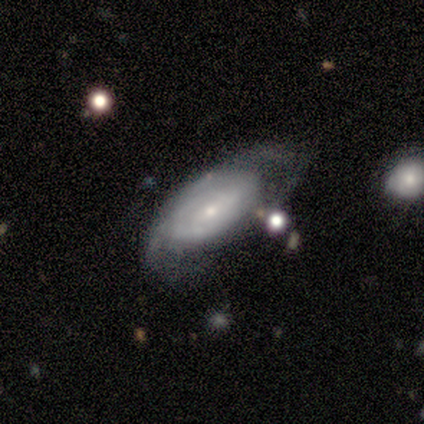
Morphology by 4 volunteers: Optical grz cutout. It shows a featured or disk galaxy (100%) with a weak bar (67%), loose (67%) spiral arms (100%) and a small central bulge (67%). Merging: none (75%).